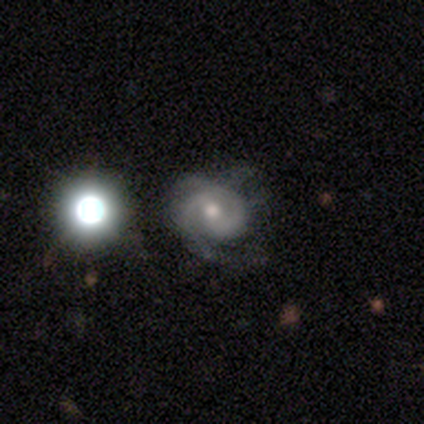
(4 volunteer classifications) smooth-or-featured: featured or disk: 75% | smooth: 25% | star or artifact: 0%
  disk-edge-on: no: 100% | yes: 0%
    bar: no: 67% | weak: 33% | strong: 0%
    has-spiral-arms: yes: 100% | no: 0%
      spiral-winding: medium: 67% | tight: 33% | loose: 0%
      spiral-arm-count: 2: 67% | 1: 33% | 3: 0% | 4: 0% | more than 4: 0% | can't tell: 0%
    bulge-size: moderate: 100% | dominant: 0% | large: 0% | small: 0% | none: 0%
  merging: none: 100% | minor disturbance: 0% | major disturbance: 0% | merger: 0%